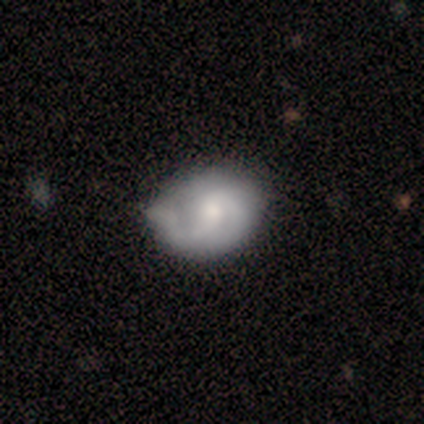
Smooth or featured: featured or disk — 60% (smooth — 40%)
Edge-on disk: no — 100%
Bar: no — 67% (weak — 33%)
Spiral arms: yes — 100%
Spiral winding: tight — 33% (tied with medium — 33%; loose — 33%)
Spiral arm count: 1 — 100%
Bulge size: moderate — 67% (small — 33%)
Merging: none — 60% (minor disturbance — 20%)